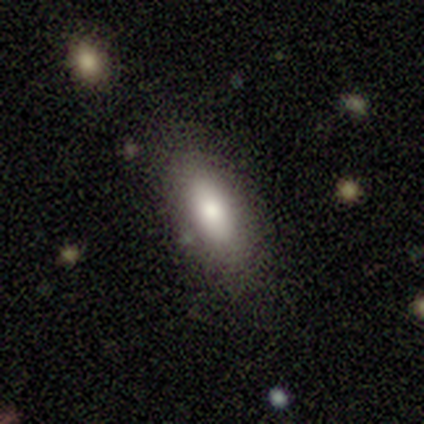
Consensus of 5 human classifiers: Smooth or featured? smooth (100%)
How rounded? in between (100%)
Merging? minor disturbance (60%)